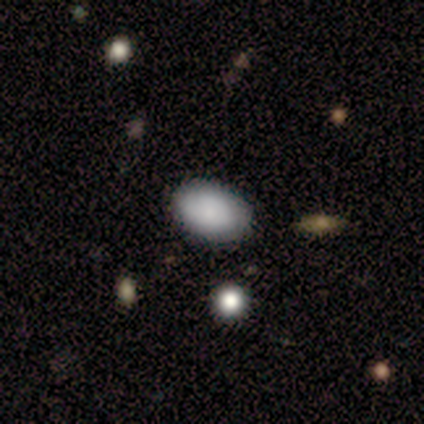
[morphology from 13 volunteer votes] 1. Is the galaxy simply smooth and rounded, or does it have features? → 85% smooth, 15% featured or disk, 0% star or artifact.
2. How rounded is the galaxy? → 91% in between, 9% round, 0% cigar-shaped.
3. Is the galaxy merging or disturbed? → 100% none, 0% minor disturbance, 0% major disturbance, 0% merger.